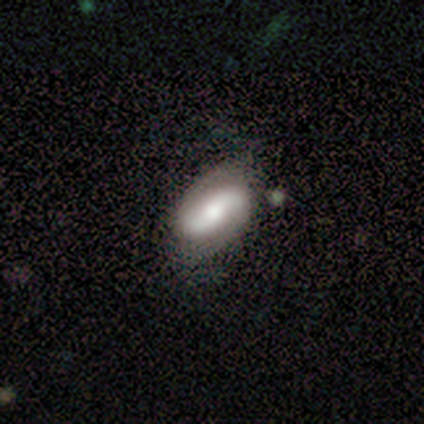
Morphology: type=featured or disk (60%); edge-on=no (100%); bar=strong (67%); spiral arms=no (67%); bulge=moderate (67%); merging=none (60%).